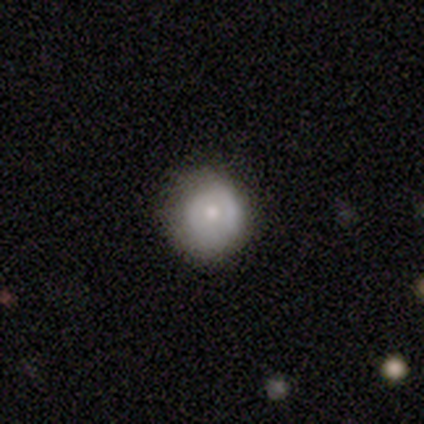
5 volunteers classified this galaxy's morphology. A smooth galaxy with no disk features (60%) that is round (100%).

Vote fractions:
- Smooth or featured? smooth: 60% / featured or disk: 40% / star or artifact: 0%
- How rounded? round: 100% / in between: 0% / cigar-shaped: 0%
- Merging? none: 80% / minor disturbance: 20% / major disturbance: 0% / merger: 0%